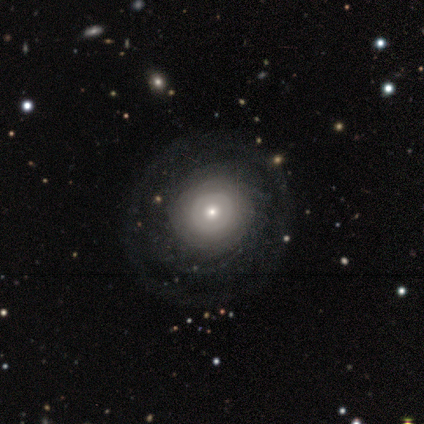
smooth-or-featured: featured or disk: 80% | smooth: 20% | star or artifact: 0%
  disk-edge-on: no: 100% | yes: 0%
    bar: no: 100% | strong: 0% | weak: 0%
    has-spiral-arms: yes: 50% (tied) | no: 50% (tied)
      spiral-winding: tight: 50% (tied) | medium: 50% (tied) | loose: 0%
      spiral-arm-count: can't tell: 100% | 1: 0% | 2: 0% | 3: 0% | 4: 0% | more than 4: 0%
    bulge-size: small: 75% | moderate: 25% | dominant: 0% | large: 0% | none: 0%
  merging: none: 80% | minor disturbance: 20% | major disturbance: 0% | merger: 0%